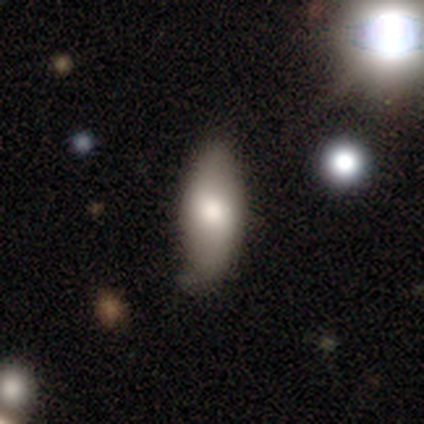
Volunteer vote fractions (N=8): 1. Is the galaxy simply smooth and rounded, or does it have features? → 62% smooth, 25% featured or disk, 12% star or artifact.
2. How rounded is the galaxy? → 100% in between, 0% round, 0% cigar-shaped.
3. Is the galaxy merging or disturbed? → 43% none (tied), 43% minor disturbance (tied), 14% merger, 0% major disturbance.